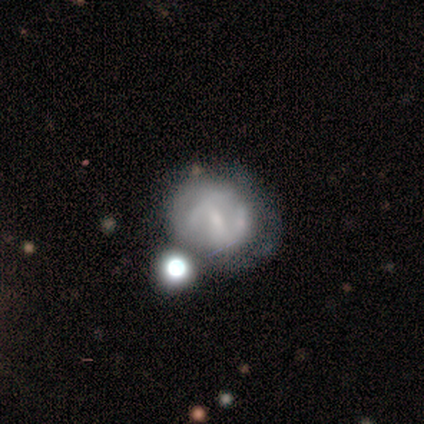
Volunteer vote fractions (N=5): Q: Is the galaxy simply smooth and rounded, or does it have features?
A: featured or disk — 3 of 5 (60%).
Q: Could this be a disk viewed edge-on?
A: no — 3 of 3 (100%).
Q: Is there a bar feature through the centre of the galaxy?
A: strong — 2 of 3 (67%).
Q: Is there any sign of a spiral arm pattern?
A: yes — 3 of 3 (100%).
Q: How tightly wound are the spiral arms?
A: medium — 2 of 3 (67%).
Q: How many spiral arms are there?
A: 2 — 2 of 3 (67%).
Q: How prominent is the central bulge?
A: small — 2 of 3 (67%).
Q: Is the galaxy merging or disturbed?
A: none — 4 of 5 (80%).